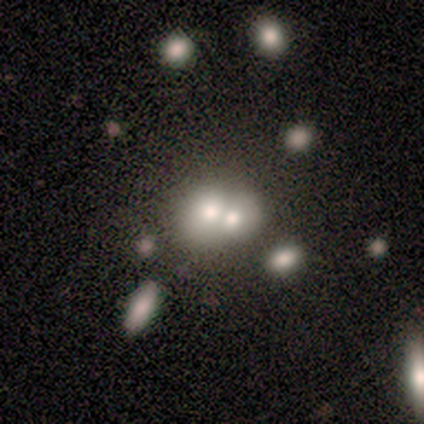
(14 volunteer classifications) A smooth galaxy with no disk features (50%) that is round (71%). Merging: merger (50%).